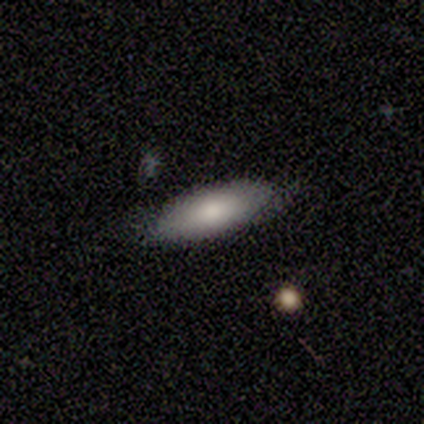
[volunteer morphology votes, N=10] Smooth or featured?
  - smooth: 90% *
  - featured or disk: 10%
  - star or artifact: 0%
How rounded?
  - in between: 78% *
  - cigar-shaped: 22%
  - round: 0%
Merging?
  - none: 80% *
  - minor disturbance: 10%
  - major disturbance: 10%
  - merger: 0%